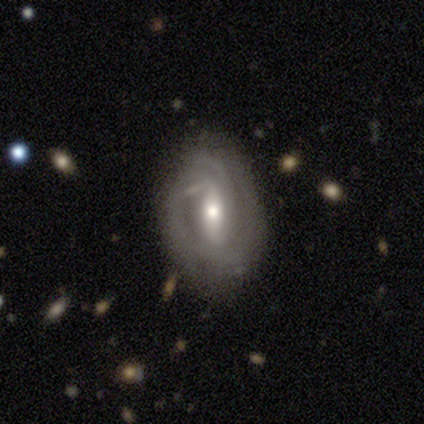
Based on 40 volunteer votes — Q: Smooth or featured?
A: featured or disk (90%); runner-up: smooth (8%)
Q: Edge-on disk?
A: no (97%); runner-up: yes (3%)
Q: Bar?
A: weak (49%); runner-up: strong (37%)
Q: Spiral arms?
A: yes (74%); runner-up: no (26%)
Q: Spiral winding?
A: tight (69%); runner-up: medium (23%)
Q: Spiral arm count?
A: 2 (58%); runner-up: 3 (19%)
Q: Bulge size?
A: moderate (57%); runner-up: small (26%)
Q: Merging?
A: none (59%); runner-up: minor disturbance (26%)